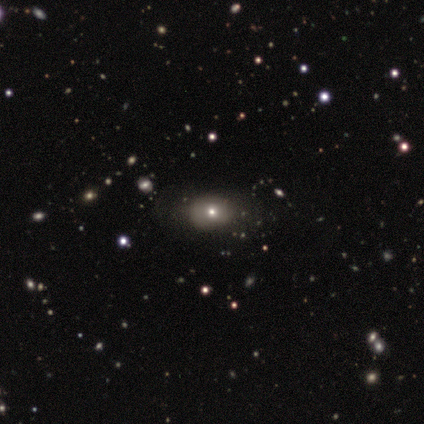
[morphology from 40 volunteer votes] This appears to be a smooth galaxy with no disk features (68%) that is in between round and cigar-shaped (56%). Merging: none (77%).